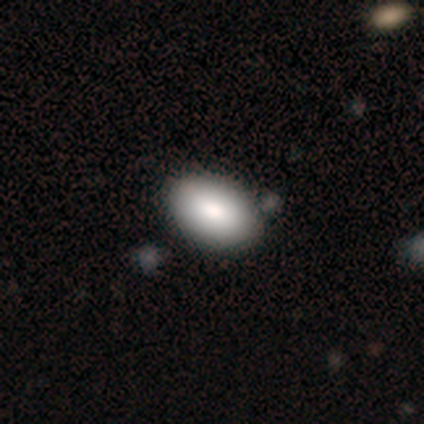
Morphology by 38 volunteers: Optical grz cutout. It shows a smooth galaxy with no disk features (82%) that is in between round and cigar-shaped (97%). Merging: none (69%).